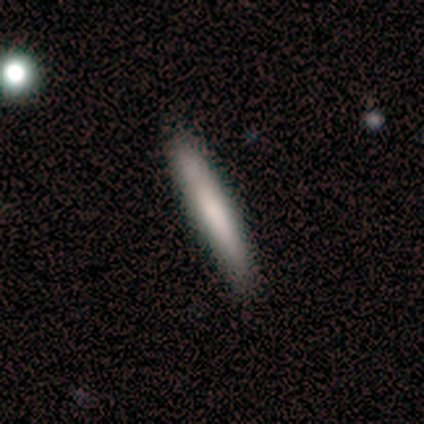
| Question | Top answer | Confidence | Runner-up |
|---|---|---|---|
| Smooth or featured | smooth | 80% | featured or disk (20%) |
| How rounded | cigar-shaped | 100% | — |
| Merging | none | 80% | minor disturbance (20%) |